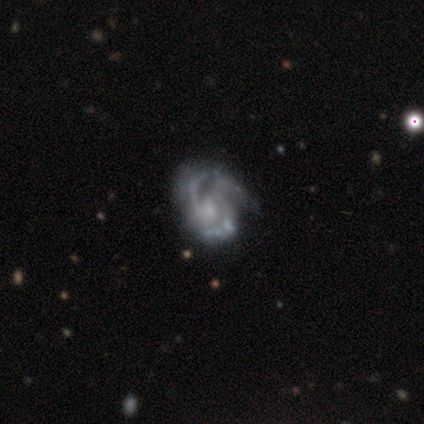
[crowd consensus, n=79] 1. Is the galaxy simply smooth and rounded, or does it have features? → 89% featured or disk, 8% smooth, 4% star or artifact.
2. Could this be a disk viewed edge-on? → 100% no, 0% yes.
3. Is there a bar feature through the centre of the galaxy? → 61% no, 37% weak, 1% strong.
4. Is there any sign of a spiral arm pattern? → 91% yes, 9% no.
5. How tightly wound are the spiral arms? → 58% medium, 23% tight, 19% loose.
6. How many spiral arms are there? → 55% 2, 36% 3, 6% can't tell, 3% 1, 0% 4, 0% more than 4.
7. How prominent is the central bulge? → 50% small, 31% moderate, 14% none, 4% large, 0% dominant.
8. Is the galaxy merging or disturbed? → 20% none (tied), 20% minor disturbance (tied), 8% major disturbance, 5% merger.